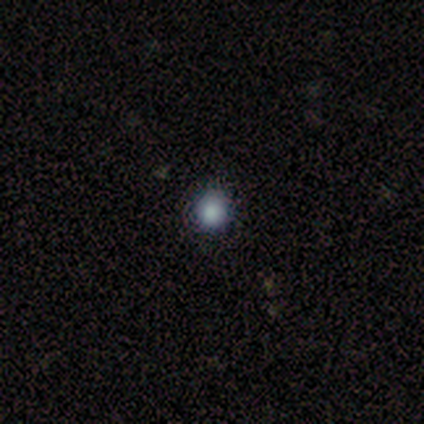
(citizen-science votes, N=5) Overall: smooth (80%). How rounded: round (100%). Merging: none (100%).